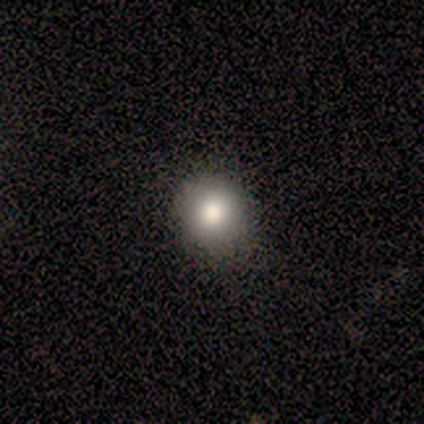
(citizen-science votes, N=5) smooth 60%, featured or disk 40%, star or artifact 0%. Down the decision tree: how rounded — round (100%); merging — none (80%).